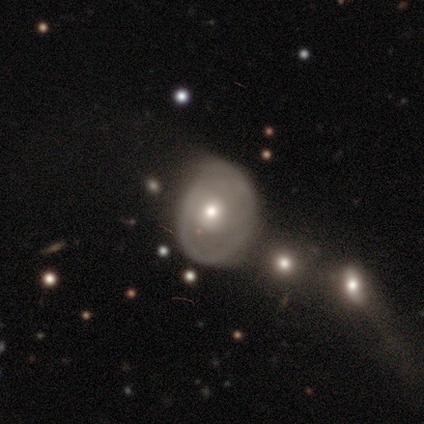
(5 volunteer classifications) smooth_or_featured: smooth (p=0.60) [alt: featured or disk p=0.40]
how_rounded: round (p=0.67) [alt: in between p=0.33]
merging: minor disturbance (p=0.80) [alt: none p=0.20]